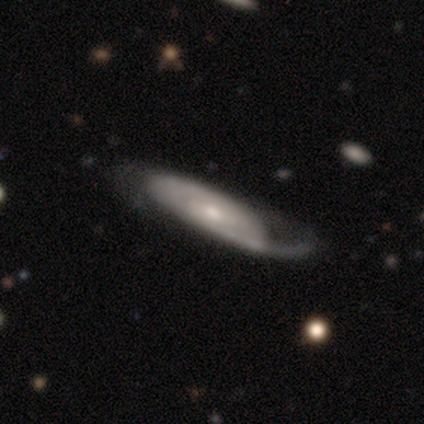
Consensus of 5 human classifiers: smooth_or_featured: featured or disk (p=0.80) [alt: smooth p=0.20]
disk_edge_on: no (p=0.75) [alt: yes p=0.25]
bar: no (p=1.00)
has_spiral_arms: yes (p=0.67) [alt: no p=0.33]
spiral_winding: tight (p=1.00)
spiral_arm_count: can't tell (p=1.00)
bulge_size: moderate (p=1.00)
merging: major disturbance (p=0.60) [alt: minor disturbance p=0.40]